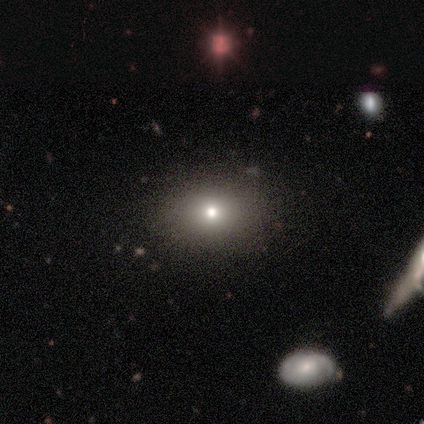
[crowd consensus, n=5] Smooth or featured? featured or disk (60%)
Edge-on disk? no (100%)
Bar? no (100%)
Spiral arms? no (100%)
Bulge size? moderate (100%)
Merging? none (100%)